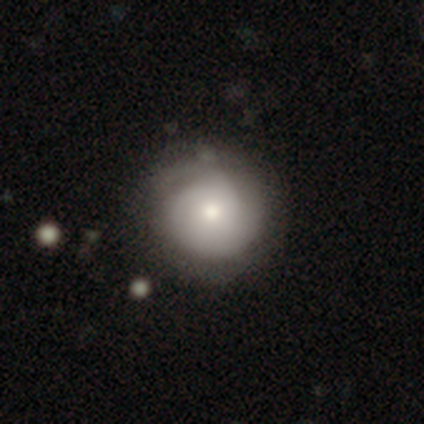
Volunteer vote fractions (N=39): Smooth or featured? 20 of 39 (51%) said smooth. How rounded? 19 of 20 (95%) said round. Merging? 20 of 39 (51%) said none.